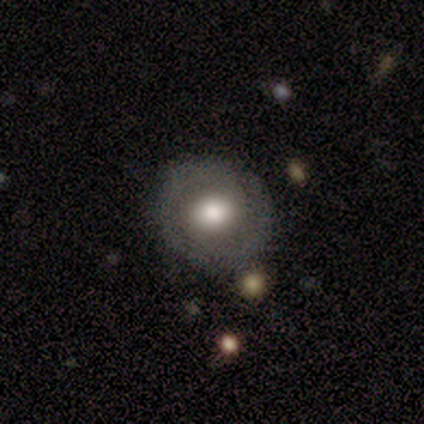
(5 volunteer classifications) Volunteers were most divided on "bulge size" (2-way tie): large: 50%, moderate: 50%, dominant: 0%, small: 0%, none: 0%. More confident: bar — no (100%); spiral arms — no (100%); merging — none (80%); edge-on disk — no (67%); smooth or featured — featured or disk (60%).